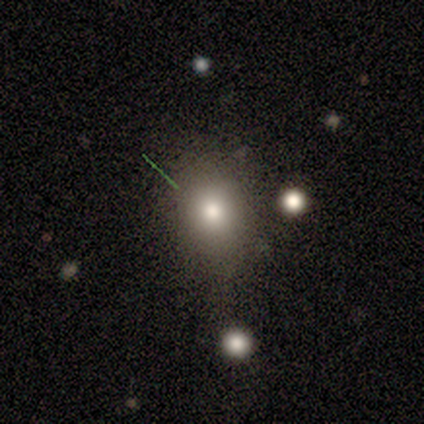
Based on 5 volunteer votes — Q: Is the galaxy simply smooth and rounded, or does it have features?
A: smooth — 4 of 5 (80%).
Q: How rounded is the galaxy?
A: round — 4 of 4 (100%).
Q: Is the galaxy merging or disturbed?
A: none — 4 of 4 (100%).